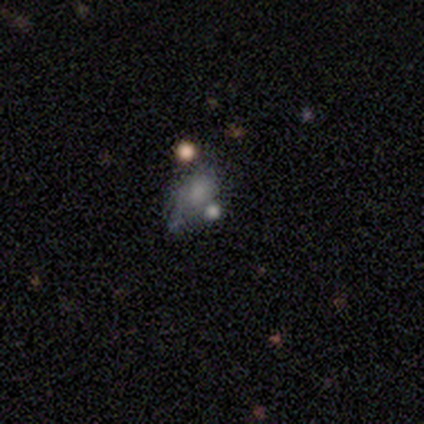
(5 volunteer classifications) Overall: smooth (80%). How rounded: in between (100%). Merging: major disturbance (40%, tied with merger).